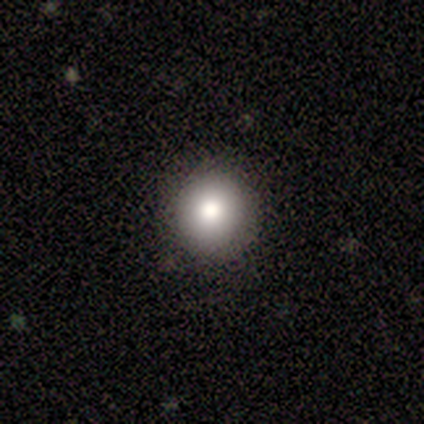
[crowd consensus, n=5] Smooth or featured?
  - smooth: 100% *
  - featured or disk: 0%
  - star or artifact: 0%
How rounded?
  - round: 100% *
  - in between: 0%
  - cigar-shaped: 0%
Merging?
  - none: 100% *
  - minor disturbance: 0%
  - major disturbance: 0%
  - merger: 0%